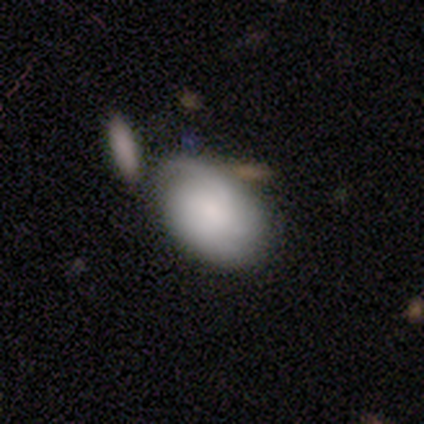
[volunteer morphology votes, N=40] This is possibly a smooth galaxy (45%). How rounded: clearly in between (94%). Merging: marginally minor disturbance (40%).